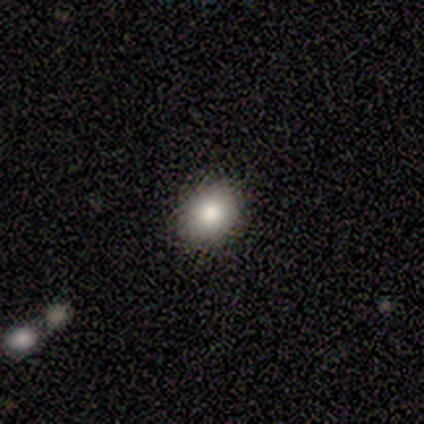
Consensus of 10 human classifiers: Smooth or featured?
  - smooth: 70% *
  - featured or disk: 20%
  - star or artifact: 10%
How rounded?
  - in between: 57% *
  - round: 43%
  - cigar-shaped: 0%
Merging?
  - none: 89% *
  - minor disturbance: 11%
  - major disturbance: 0%
  - merger: 0%